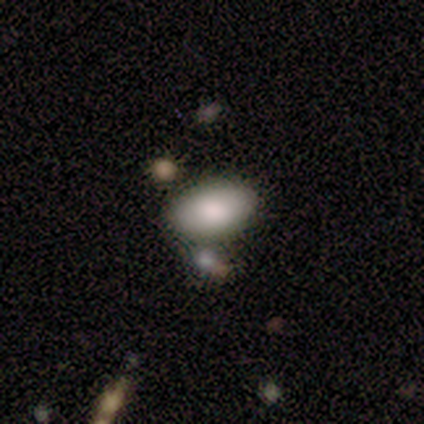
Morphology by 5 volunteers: A smooth galaxy with no disk features (80%) that is in between round and cigar-shaped (100%).

Vote fractions:
- Smooth or featured? smooth: 80% / star or artifact: 20% / featured or disk: 0%
- How rounded? in between: 100% / round: 0% / cigar-shaped: 0%
- Merging? none: 100% / minor disturbance: 0% / major disturbance: 0% / merger: 0%